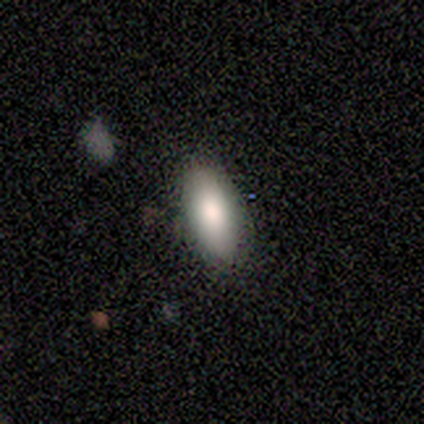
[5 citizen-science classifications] Smooth or featured? smooth (100%)
How rounded? in between (100%)
Merging? none (100%)